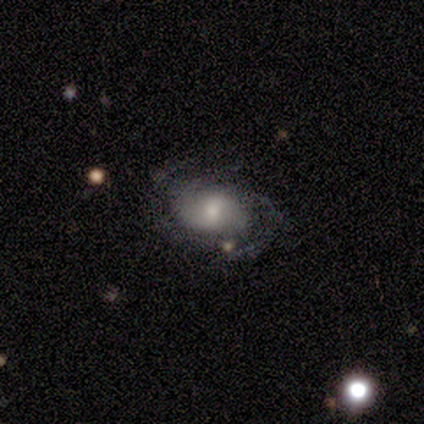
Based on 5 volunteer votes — A featured or disk galaxy (80%) with a weak bar (75%), 2 (50%, tied with can't tell) tight (50%, tied with medium) spiral arms (100%) and a moderate central bulge (75%).

Vote fractions:
- Smooth or featured? featured or disk: 80% / smooth: 20% / star or artifact: 0%
- Edge-on disk? no: 100% / yes: 0%
- Bar? weak: 75% / no: 25% / strong: 0%
- Spiral arms? yes: 100% / no: 0%
- Spiral winding? tight: 50% (tied) / medium: 50% (tied) / loose: 0%
- Spiral arm count? 2: 50% (tied) / can't tell: 50% (tied) / 1: 0% / 3: 0% / 4: 0% / more than 4: 0%
- Bulge size? moderate: 75% / small: 25% / dominant: 0% / large: 0% / none: 0%
- Merging? none: 60% / minor disturbance: 20% / major disturbance: 20% / merger: 0%